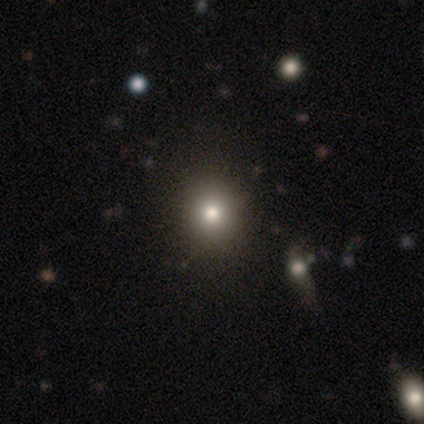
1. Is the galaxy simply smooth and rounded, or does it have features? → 67% smooth, 33% star or artifact, 0% featured or disk.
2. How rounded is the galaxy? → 100% round, 0% in between, 0% cigar-shaped.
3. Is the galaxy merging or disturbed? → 100% none, 0% minor disturbance, 0% major disturbance, 0% merger.